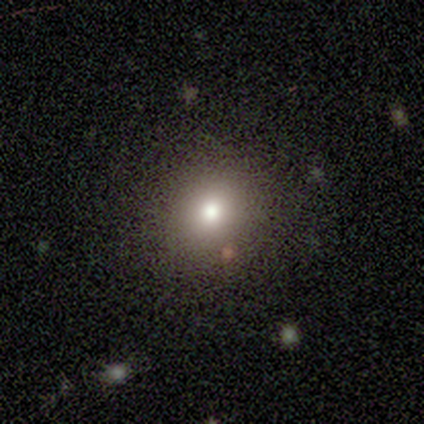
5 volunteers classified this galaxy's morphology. type=smooth (80%); roundness=round (75%); merging=none (75%).